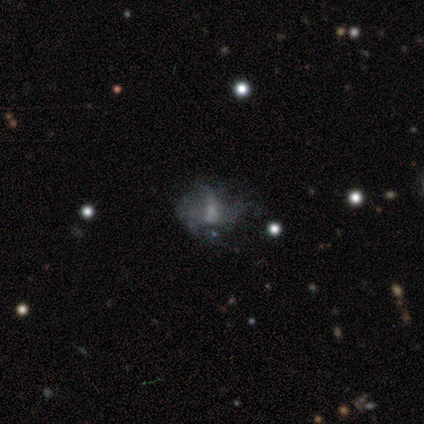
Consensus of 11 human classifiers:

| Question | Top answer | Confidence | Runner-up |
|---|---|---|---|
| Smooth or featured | featured or disk | 73% | star or artifact (18%) |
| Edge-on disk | no | 100% | — |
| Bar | no | 62% | weak (38%) |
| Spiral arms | no | 88% | yes (12%) |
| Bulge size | moderate | 50% | small (25%) |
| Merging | none | 56% | major disturbance (44%) |